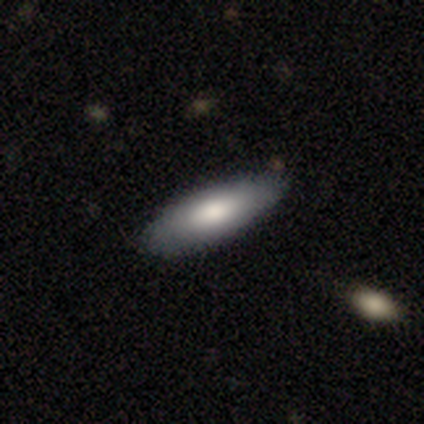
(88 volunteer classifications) A smooth galaxy with no disk features (77%) that is in between round and cigar-shaped (54%).

Vote fractions:
- Smooth or featured? smooth: 77% / featured or disk: 16% / star or artifact: 7%
- How rounded? in between: 54% / cigar-shaped: 44% / round: 1%
- Merging? none: 89% / minor disturbance: 7% / major disturbance: 4% / merger: 0%